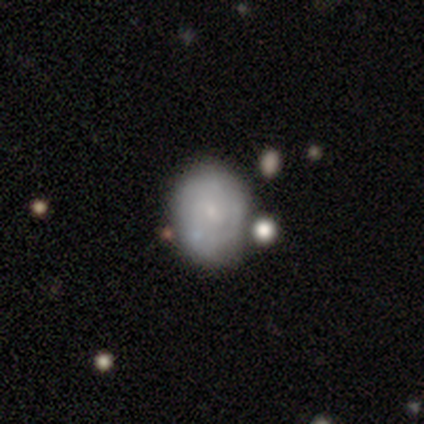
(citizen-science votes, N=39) Smooth or featured? 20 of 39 (51%) said featured or disk. Edge-on disk? 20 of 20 (100%) said no. Bar? 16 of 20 (80%) said no. Spiral arms? 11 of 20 (55%) said no. Bulge size? 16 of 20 (80%) said small. Merging? 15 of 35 (43%) said none.